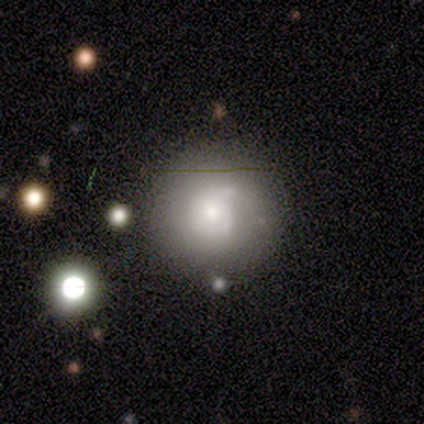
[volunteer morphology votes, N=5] smooth-or-featured: smooth: 40% (tied) | featured or disk: 40% (tied) | star or artifact: 20%
  how-rounded: round: 100% | in between: 0% | cigar-shaped: 0%
  merging: none: 100% | minor disturbance: 0% | major disturbance: 0% | merger: 0%